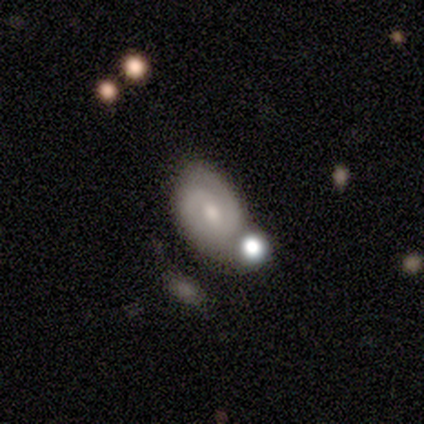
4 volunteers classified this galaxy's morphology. A featured or disk galaxy (100%) with a weak bar (75%), 2 (75%) tight (50%, tied with medium) spiral arms (100%) and a moderate central bulge (50%).

Vote fractions:
- Smooth or featured? featured or disk: 100% / smooth: 0% / star or artifact: 0%
- Edge-on disk? no: 100% / yes: 0%
- Bar? weak: 75% / no: 25% / strong: 0%
- Spiral arms? yes: 100% / no: 0%
- Spiral winding? tight: 50% (tied) / medium: 50% (tied) / loose: 0%
- Spiral arm count? 2: 75% / 3: 25% / 1: 0% / 4: 0% / more than 4: 0% / can't tell: 0%
- Bulge size? moderate: 50% / small: 25% / none: 25% / dominant: 0% / large: 0%
- Merging? none: 75% / minor disturbance: 25% / major disturbance: 0% / merger: 0%